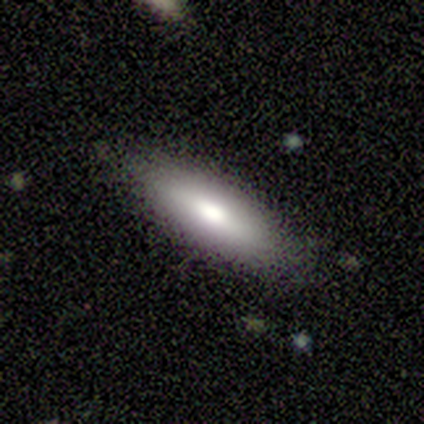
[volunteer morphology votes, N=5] smooth-or-featured: smooth: 100% | featured or disk: 0% | star or artifact: 0%
  how-rounded: in between: 80% | cigar-shaped: 20% | round: 0%
  merging: none: 100% | minor disturbance: 0% | major disturbance: 0% | merger: 0%